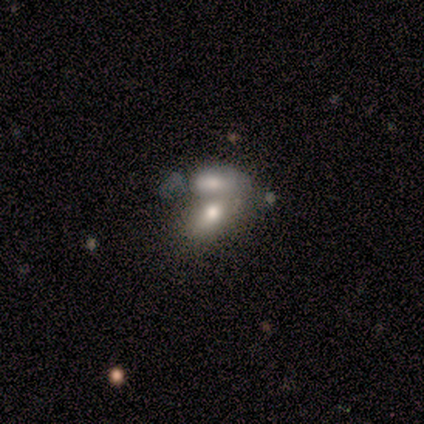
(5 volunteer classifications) Smooth or featured?
  - smooth: 60% *
  - featured or disk: 20%
  - star or artifact: 20%
How rounded?
  - in between: 67% *
  - cigar-shaped: 33%
  - round: 0%
Merging?
  - merger: 75% *
  - none: 25%
  - minor disturbance: 0%
  - major disturbance: 0%